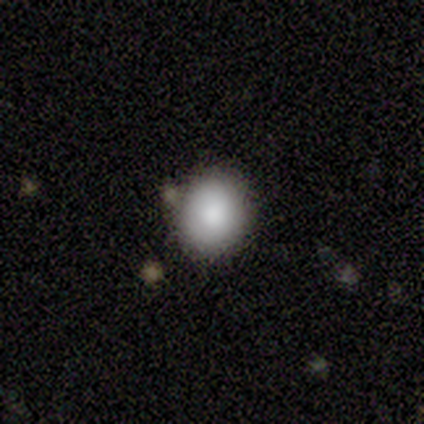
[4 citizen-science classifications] Smooth or featured? 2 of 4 (50%) said smooth. How rounded? 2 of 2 (100%) said in between. Merging? 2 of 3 (67%) said none.